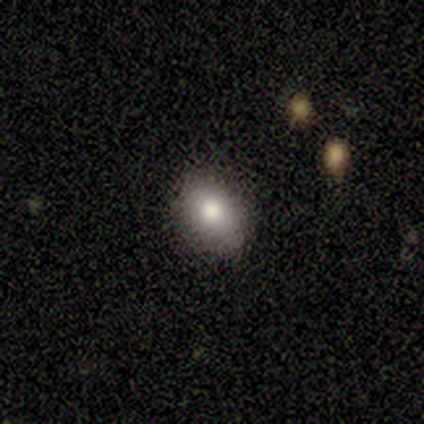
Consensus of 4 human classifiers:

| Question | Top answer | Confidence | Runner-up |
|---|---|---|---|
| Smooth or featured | smooth | 75% | star or artifact (25%) |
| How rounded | in between | 67% | round (33%) |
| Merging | none | 100% | — |